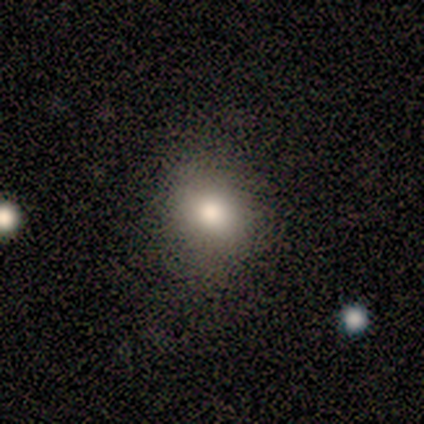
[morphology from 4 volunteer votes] Overall: smooth (75%). How rounded: round (67%; in between 33%). Merging: none (100%).